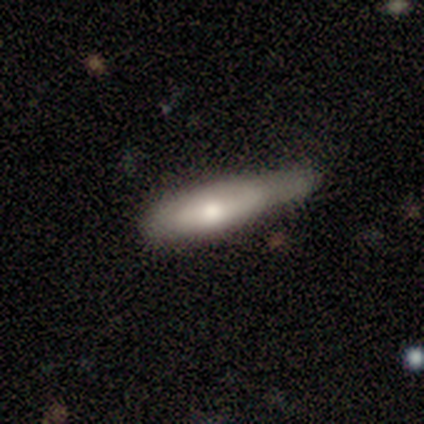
Overall: smooth (60%; featured or disk 40%). How rounded: cigar-shaped (67%; in between 33%). Merging: minor disturbance (60%; major disturbance 20%).